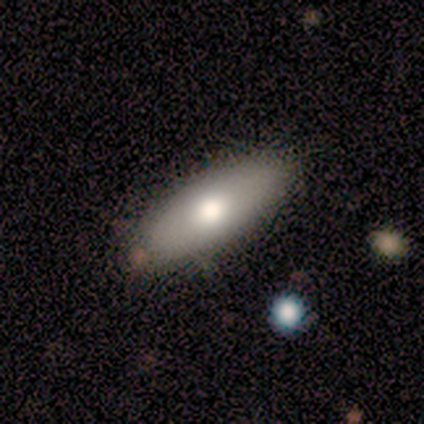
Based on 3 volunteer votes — Smooth or featured? featured or disk (67%)
Edge-on disk? yes (50%, tied with no)
Edge-on bulge? rounded (100%)
Merging? none (100%)